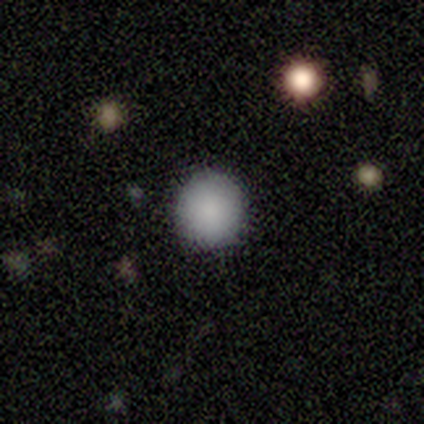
smooth 100%, featured or disk 0%, star or artifact 0%. Down the decision tree: how rounded — round (75%); merging — none (75%).